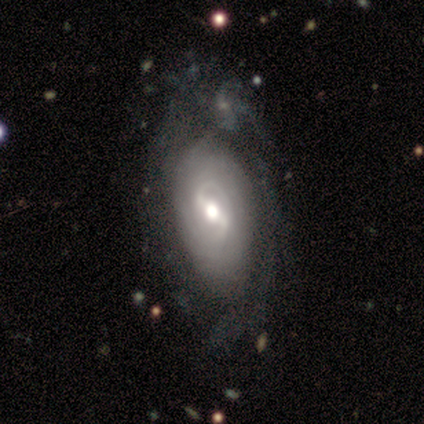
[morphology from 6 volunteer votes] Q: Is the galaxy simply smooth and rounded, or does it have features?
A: featured or disk — 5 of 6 (83%).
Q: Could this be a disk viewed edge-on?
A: no — 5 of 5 (100%).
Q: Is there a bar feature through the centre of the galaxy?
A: strong — 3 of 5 (60%).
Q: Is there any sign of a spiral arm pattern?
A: yes — 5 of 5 (100%).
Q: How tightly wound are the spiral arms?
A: tight — 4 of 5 (80%).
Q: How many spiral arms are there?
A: can't tell — 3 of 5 (60%).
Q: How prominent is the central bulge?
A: moderate — 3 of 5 (60%).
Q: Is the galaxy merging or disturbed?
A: none — 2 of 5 (40%).